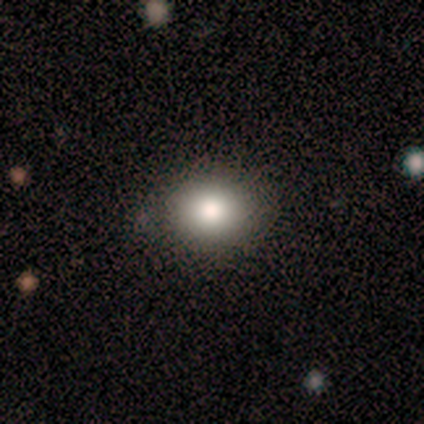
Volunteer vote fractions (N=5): Q: Smooth or featured?
A: smooth (100%)
Q: How rounded?
A: round (60%); runner-up: in between (40%)
Q: Merging?
A: none (80%); runner-up: minor disturbance (20%)